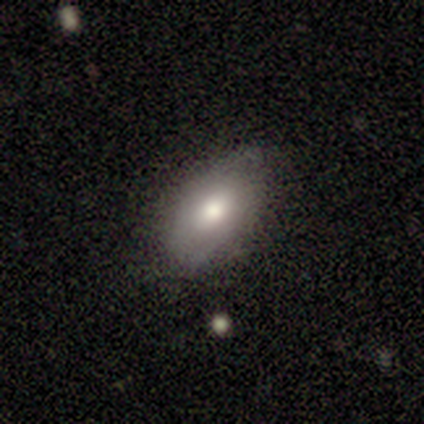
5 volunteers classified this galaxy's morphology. A smooth galaxy with no disk features (60%) that is in between round and cigar-shaped (100%).

Vote fractions:
- Smooth or featured? smooth: 60% / featured or disk: 40% / star or artifact: 0%
- How rounded? in between: 100% / round: 0% / cigar-shaped: 0%
- Merging? none: 80% / minor disturbance: 20% / major disturbance: 0% / merger: 0%